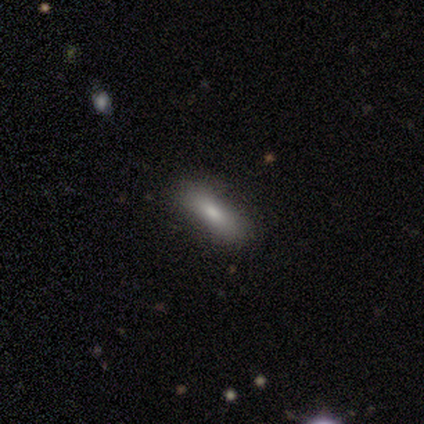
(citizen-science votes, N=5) Smooth or featured? 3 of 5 (60%) said featured or disk. Edge-on disk? 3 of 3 (100%) said yes. Edge-on bulge? 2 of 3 (67%) said rounded. Merging? 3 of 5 (60%) said none.